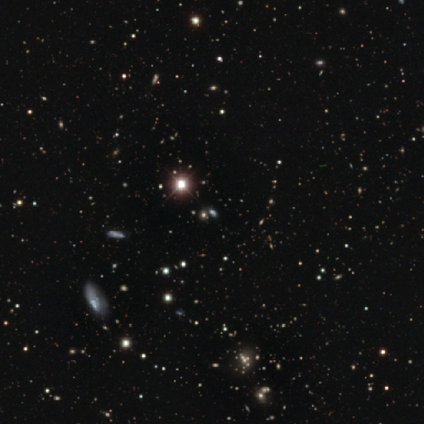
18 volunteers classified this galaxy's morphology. Smooth or featured?
  - star or artifact: 78% *
  - smooth: 22%
  - featured or disk: 0%